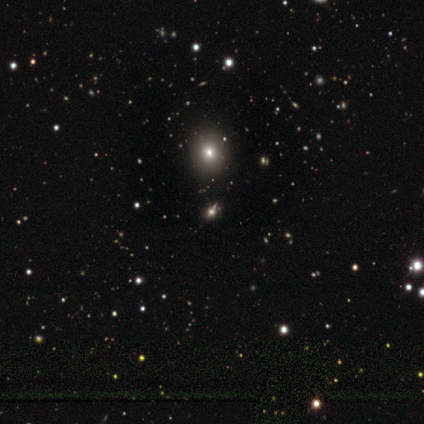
Q: Smooth or featured?
A: smooth (80%); runner-up: star or artifact (20%)
Q: How rounded?
A: round (75%); runner-up: in between (25%)
Q: Merging?
A: none (100%)